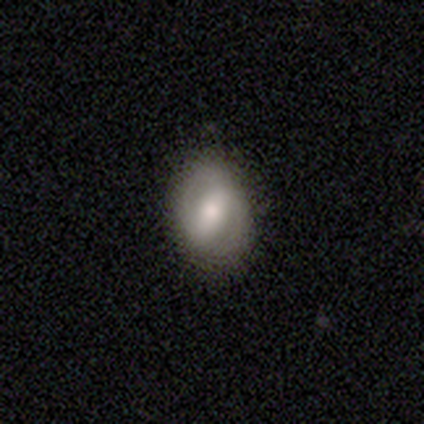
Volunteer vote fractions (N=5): Q: Smooth or featured?
A: smooth (40%); tied with: featured or disk (40%)
Q: How rounded?
A: in between (100%)
Q: Merging?
A: none (100%)